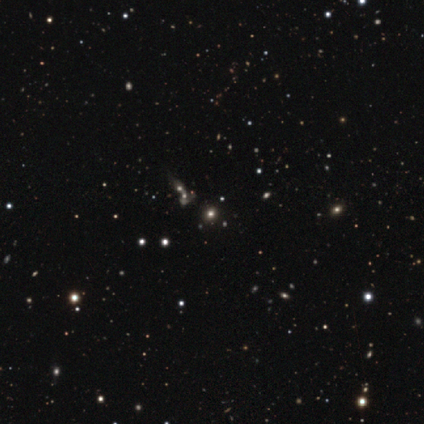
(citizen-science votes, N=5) This is clearly a smooth galaxy (80%). How rounded: clearly round (100%). Merging: likely none (75%).